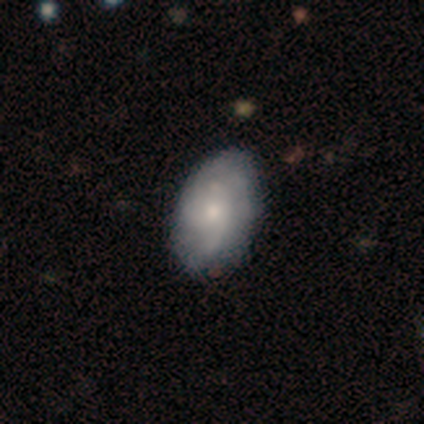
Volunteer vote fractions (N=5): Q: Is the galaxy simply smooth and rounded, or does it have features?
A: featured or disk — 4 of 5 (80%).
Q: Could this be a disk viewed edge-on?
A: no — 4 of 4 (100%).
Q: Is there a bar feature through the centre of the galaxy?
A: no — 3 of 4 (75%).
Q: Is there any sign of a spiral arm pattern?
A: yes — 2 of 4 (50%, tied with no).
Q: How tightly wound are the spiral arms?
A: medium — 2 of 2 (100%).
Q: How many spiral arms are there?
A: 4 — 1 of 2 (50%, tied with can't tell).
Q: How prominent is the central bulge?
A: small — 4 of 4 (100%).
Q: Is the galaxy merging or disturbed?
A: none — 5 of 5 (100%).